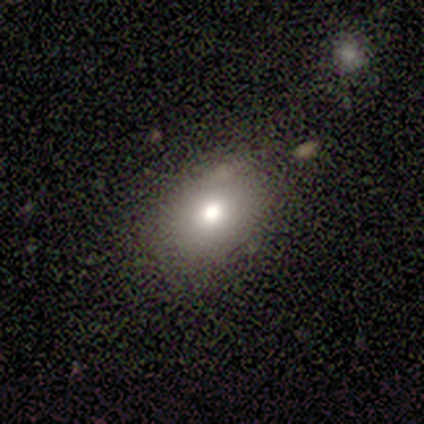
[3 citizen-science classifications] Smooth or featured: featured or disk — 67% (smooth — 33%)
Edge-on disk: no — 100%
Bar: no — 100%
Spiral arms: no — 100%
Bulge size: moderate — 100%
Merging: none — 100%